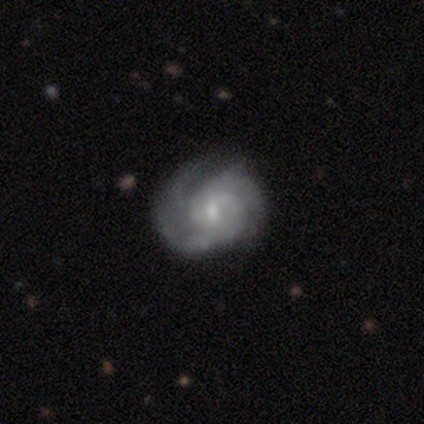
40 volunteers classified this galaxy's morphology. A featured or disk galaxy (95%) with a weak bar (66%), 3 (46%) tight (66%) spiral arms (92%) and a small central bulge (53%). Merging: none (55%).